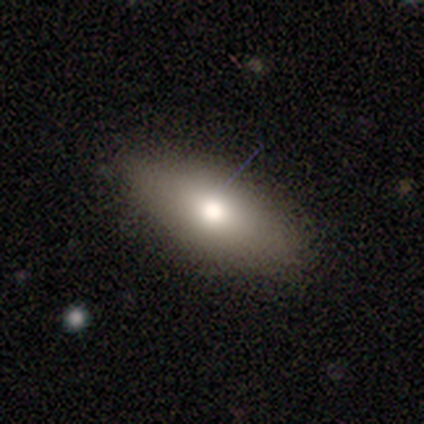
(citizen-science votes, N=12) Smooth or featured?
  - smooth: 100% *
  - featured or disk: 0%
  - star or artifact: 0%
How rounded?
  - in between: 92% *
  - cigar-shaped: 8%
  - round: 0%
Merging?
  - none: 92% *
  - minor disturbance: 8%
  - major disturbance: 0%
  - merger: 0%